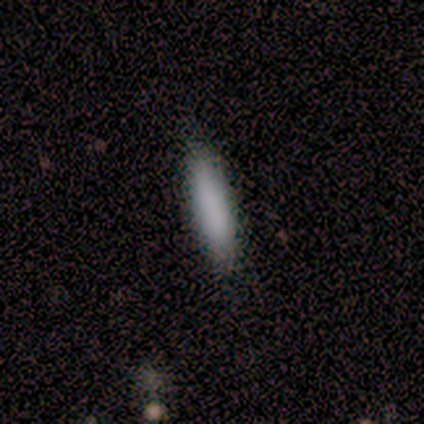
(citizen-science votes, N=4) Morphology: type=smooth (75%); roundness=cigar-shaped (67%); merging=none (67%).